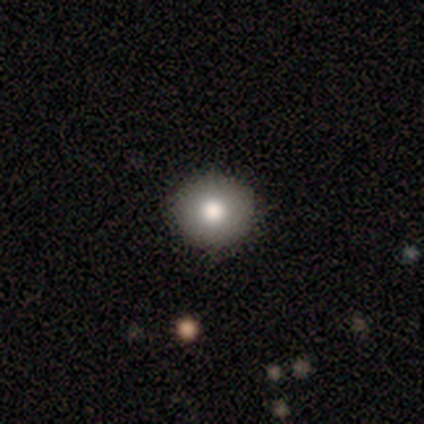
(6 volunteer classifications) A smooth galaxy with no disk features (100%) that is round (67%). Merging: none (83%).